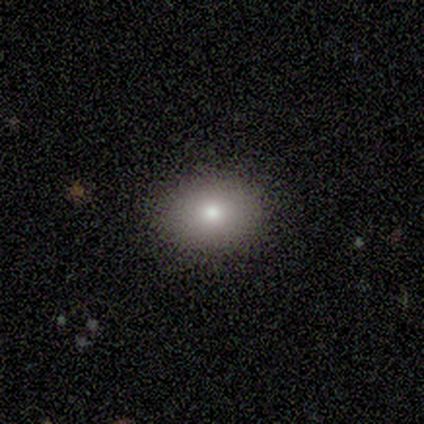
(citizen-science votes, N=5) This appears to be a smooth galaxy with no disk features (100%) that is in between round and cigar-shaped (60%). Merging: none (100%).